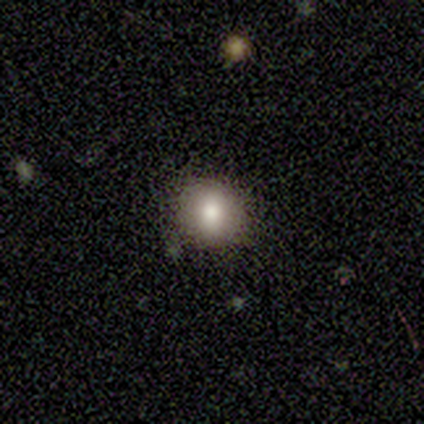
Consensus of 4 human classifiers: Volunteers were most divided on "smooth or featured": smooth: 75%, star or artifact: 25%, featured or disk: 0%. More confident: how rounded — round (100%); merging — none (100%).